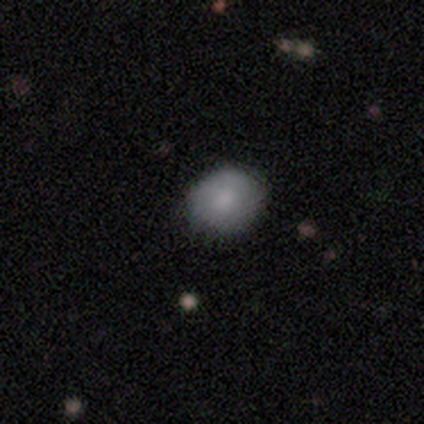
Smooth or featured? smooth (100%)
How rounded? round (60%)
Merging? none (100%)